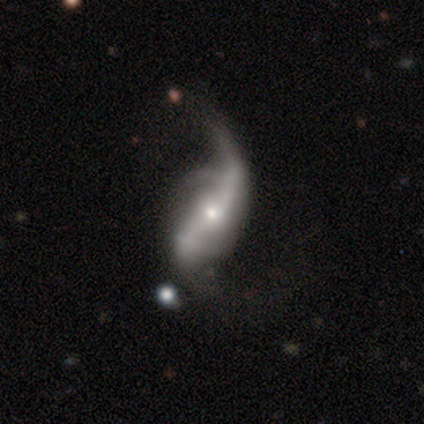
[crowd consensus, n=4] smooth_or_featured: featured or disk (p=0.75) [alt: smooth p=0.25]
disk_edge_on: no (p=1.00)
bar: strong (p=0.67) [alt: weak p=0.33]
has_spiral_arms: yes (p=1.00)
spiral_winding: loose (p=1.00)
spiral_arm_count: 1 (p=0.33) [tied with: 2 p=0.33, 3 p=0.33]
bulge_size: small (p=0.67) [alt: moderate p=0.33]
merging: major disturbance (p=0.75) [alt: minor disturbance p=0.25]